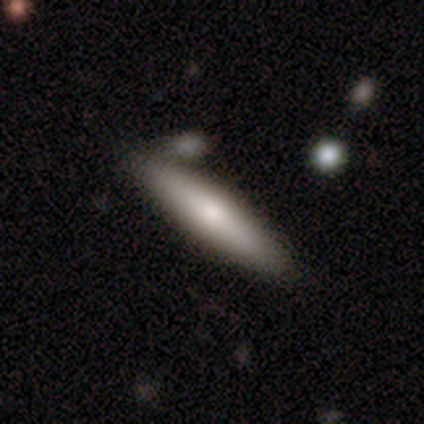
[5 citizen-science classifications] Q: Smooth or featured?
A: smooth (40%); tied with: featured or disk (40%)
Q: How rounded?
A: cigar-shaped (100%)
Q: Merging?
A: none (75%); runner-up: merger (25%)